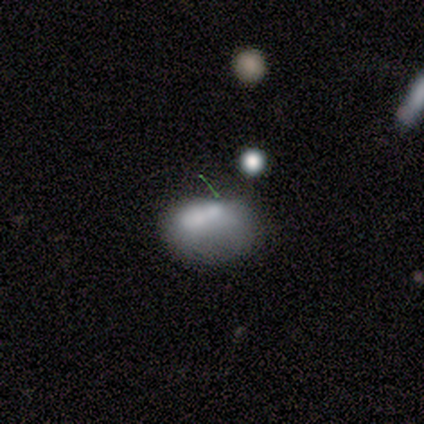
smooth_or_featured: smooth (p=0.60) [alt: featured or disk p=0.30]
how_rounded: in between (p=0.83) [alt: round p=0.17]
merging: none (p=0.33) [tied with: major disturbance p=0.33]